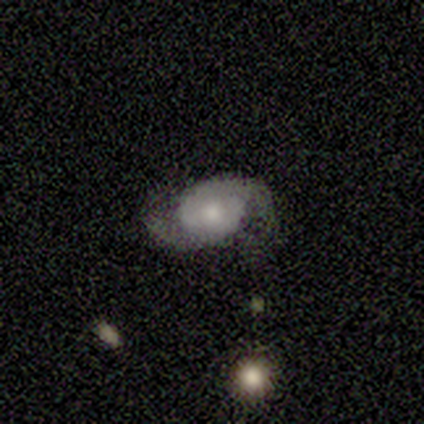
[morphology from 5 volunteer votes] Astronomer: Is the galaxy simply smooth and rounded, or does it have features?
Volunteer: smooth — 60% (runner-up: featured or disk, 40%).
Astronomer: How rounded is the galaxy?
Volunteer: in between — 67%.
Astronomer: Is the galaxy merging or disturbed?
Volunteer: minor disturbance — 60% (runner-up: none, 40%).